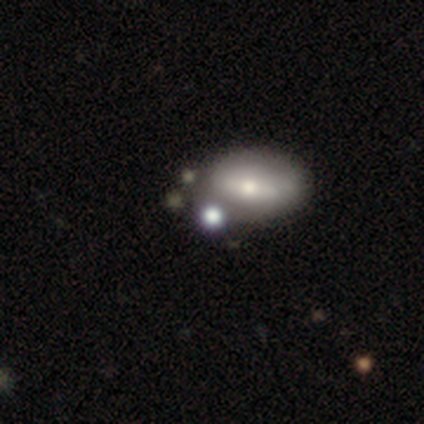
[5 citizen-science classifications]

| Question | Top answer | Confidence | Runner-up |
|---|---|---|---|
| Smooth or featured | smooth | 80% | star or artifact (20%) |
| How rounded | round | 50% | tied: in between (50%) |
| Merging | none | 100% | — |